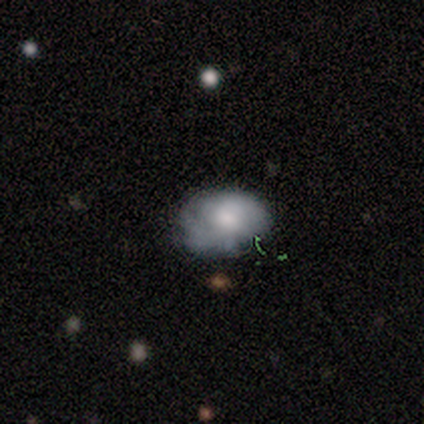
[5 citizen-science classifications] Smooth or featured: smooth — 60% (featured or disk — 20%)
How rounded: in between — 100%
Merging: none — 50% (tied with major disturbance — 50%)